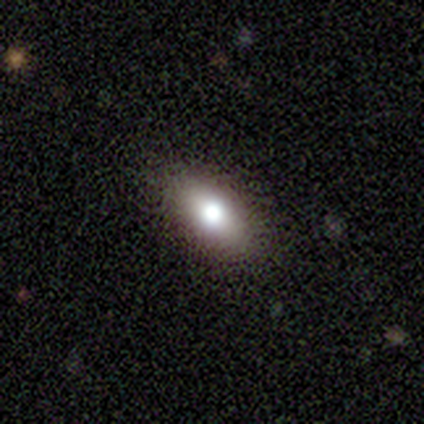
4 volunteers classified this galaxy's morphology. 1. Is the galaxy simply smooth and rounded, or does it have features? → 50% smooth, 25% featured or disk, 25% star or artifact.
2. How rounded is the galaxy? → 50% round (tied), 50% in between (tied), 0% cigar-shaped.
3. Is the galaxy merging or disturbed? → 100% none, 0% minor disturbance, 0% major disturbance, 0% merger.